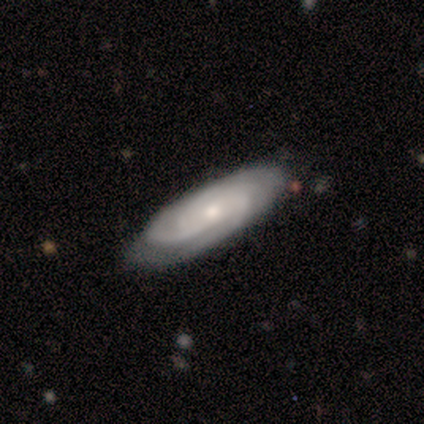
Q: Smooth or featured?
A: featured or disk (100%)
Q: Edge-on disk?
A: no (75%); runner-up: yes (25%)
Q: Bar?
A: no (100%)
Q: Spiral arms?
A: yes (100%)
Q: Spiral winding?
A: tight (100%)
Q: Spiral arm count?
A: 2 (33%); tied with: 3 (33%); more than 4 (33%)
Q: Bulge size?
A: small (100%)
Q: Merging?
A: none (100%)